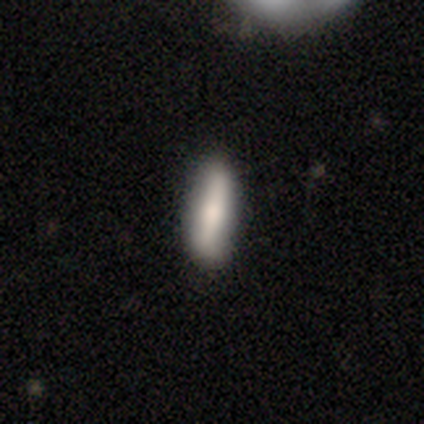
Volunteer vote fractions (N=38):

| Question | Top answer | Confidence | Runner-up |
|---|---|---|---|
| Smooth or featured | smooth | 74% | featured or disk (24%) |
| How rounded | cigar-shaped | 54% | in between (46%) |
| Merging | none | 81% | minor disturbance (16%) |